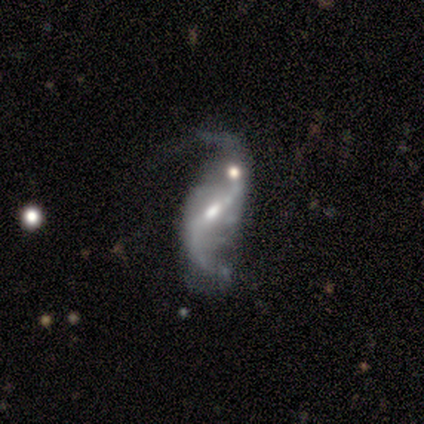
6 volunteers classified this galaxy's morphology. smooth-or-featured: featured or disk: 100% | smooth: 0% | star or artifact: 0%
  disk-edge-on: no: 100% | yes: 0%
    bar: strong: 33% (tied) | weak: 33% (tied) | no: 33% (tied)
    has-spiral-arms: yes: 100% | no: 0%
      spiral-winding: loose: 83% | medium: 17% | tight: 0%
      spiral-arm-count: 2: 83% | 1: 17% | 3: 0% | 4: 0% | more than 4: 0% | can't tell: 0%
    bulge-size: large: 33% (tied) | small: 33% (tied) | moderate: 17% | none: 17% | dominant: 0%
  merging: none: 50% | merger: 33% | major disturbance: 17% | minor disturbance: 0%